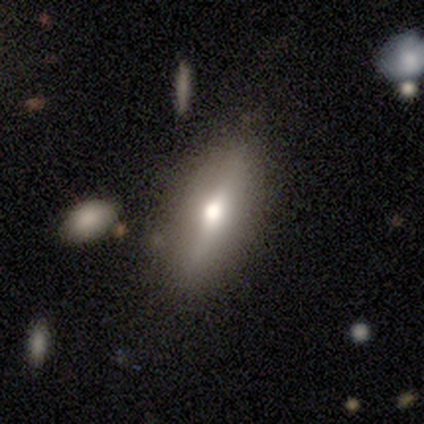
Morphology: type=smooth (49%); roundness=cigar-shaped (52%); merging=none (83%).